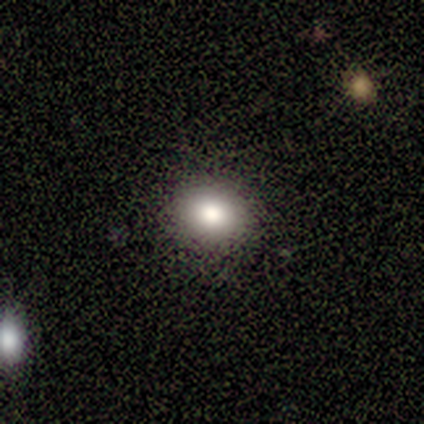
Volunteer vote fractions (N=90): This is likely a smooth galaxy (78%). How rounded: likely round (66%). Merging: clearly none (90%).